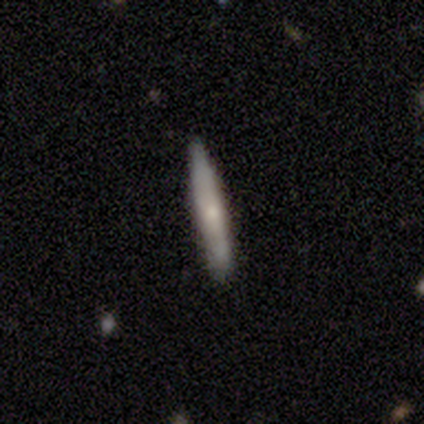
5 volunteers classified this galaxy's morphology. Volunteers were most divided on "smooth or featured": smooth: 60%, featured or disk: 20%, star or artifact: 20%. More confident: how rounded — cigar-shaped (100%); merging — none (75%).